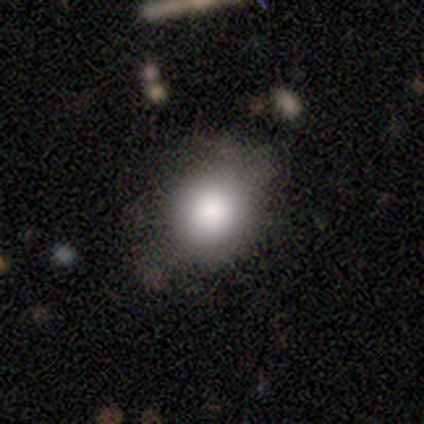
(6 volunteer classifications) This appears to be a smooth galaxy with no disk features (67%) that is round (50%, tied with in between). Merging: none (67%).